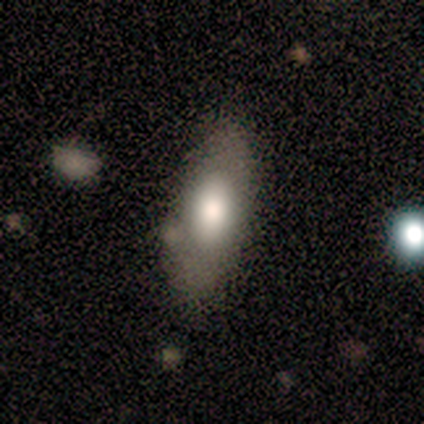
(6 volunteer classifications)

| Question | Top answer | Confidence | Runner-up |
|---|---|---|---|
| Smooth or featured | smooth | 83% | featured or disk (17%) |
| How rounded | in between | 80% | cigar-shaped (20%) |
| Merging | none | 67% | minor disturbance (17%) |